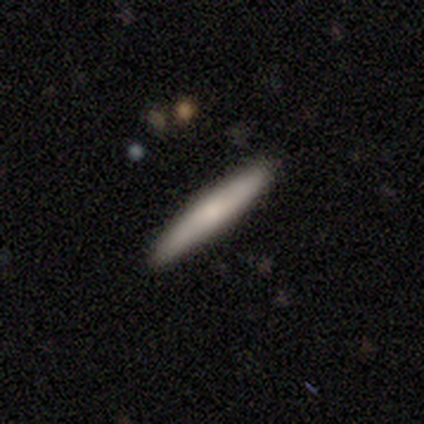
Overall: smooth (50%, tied with featured or disk). How rounded: cigar-shaped (100%). Merging: none (100%).